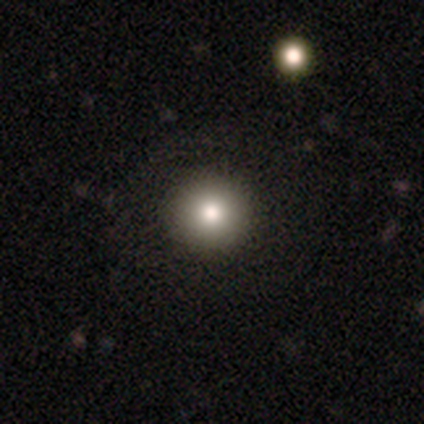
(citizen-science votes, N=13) Volunteers were most divided on "smooth or featured": smooth: 85%, featured or disk: 15%, star or artifact: 0%. More confident: how rounded — round (100%); merging — none (100%).